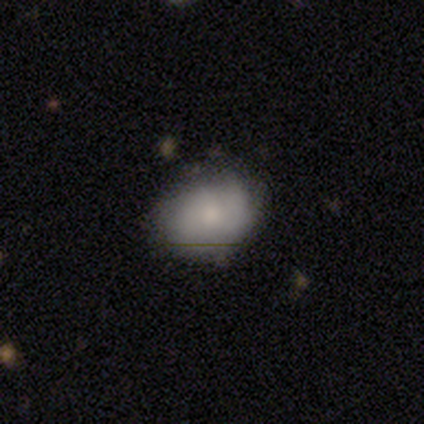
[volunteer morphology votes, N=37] Smooth or featured: smooth — 68% (featured or disk — 27%)
How rounded: round — 52% (in between — 48%)
Merging: none — 66% (minor disturbance — 23%)